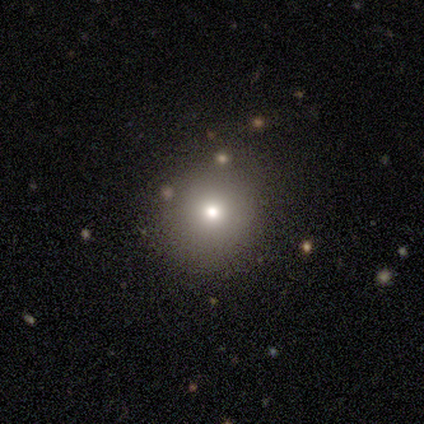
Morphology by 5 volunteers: A smooth galaxy with no disk features (80%) that is round (100%). Merging: none (100%).